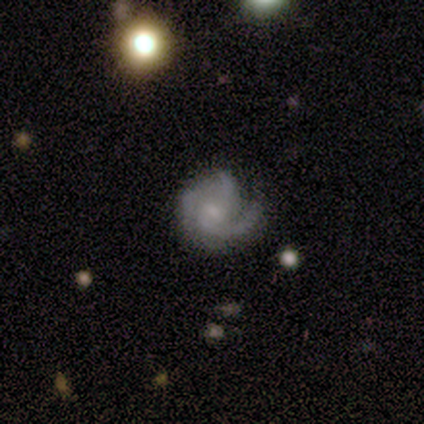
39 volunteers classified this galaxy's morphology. A featured or disk galaxy (90%) with no bar (70%), 3 (45%) medium (42%) spiral arms (100%) and a small central bulge (61%). Merging: none (80%).